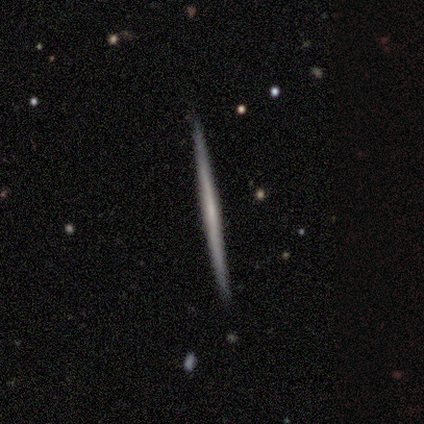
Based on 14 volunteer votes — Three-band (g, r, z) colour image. It shows a featured or disk galaxy (79%) viewed edge-on (91%) with no central bulge (80%). Merging: none (93%).